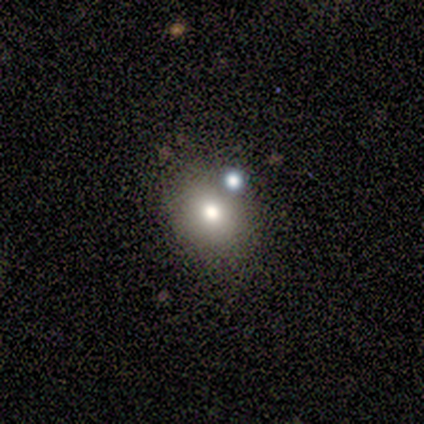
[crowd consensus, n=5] Smooth or featured? smooth (80%)
How rounded? round (75%)
Merging? none (80%)